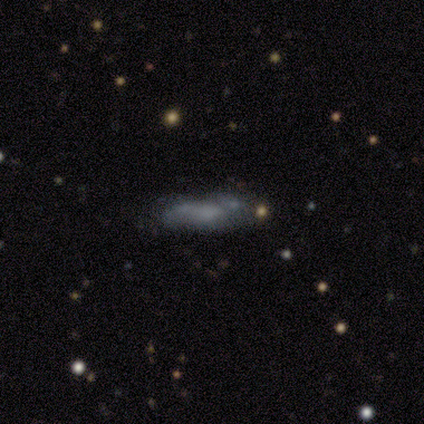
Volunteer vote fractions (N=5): A smooth galaxy with no disk features (100%) that is cigar-shaped (80%). Merging: none (80%).